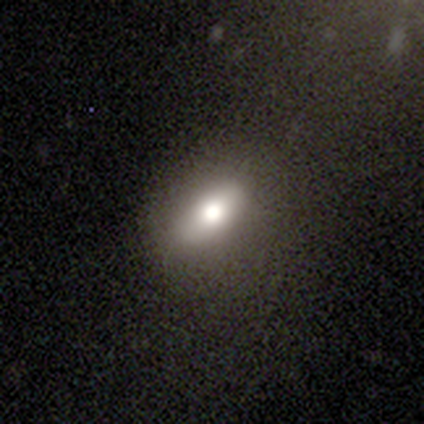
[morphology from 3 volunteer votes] This is clearly a smooth galaxy (100%). How rounded: clearly in between (100%). Merging: clearly none (100%).